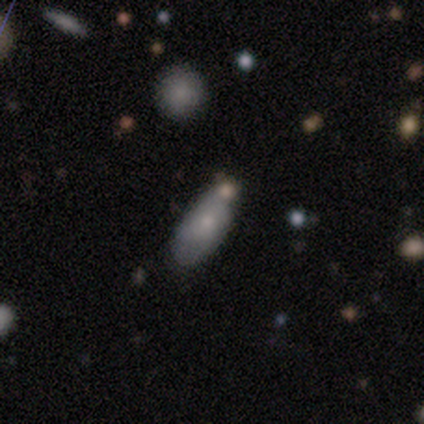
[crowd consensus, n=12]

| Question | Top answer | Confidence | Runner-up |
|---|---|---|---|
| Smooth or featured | smooth | 42% | tied: featured or disk (42%) |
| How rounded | in between | 80% | round (20%) |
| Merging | none | 80% | minor disturbance (20%) |